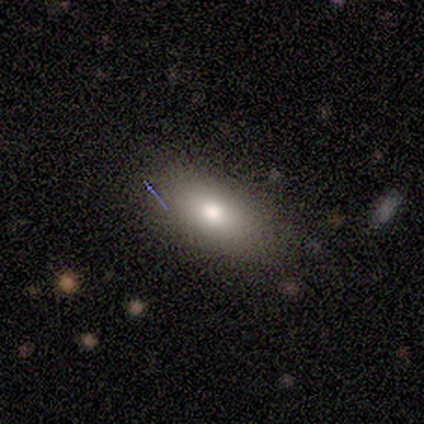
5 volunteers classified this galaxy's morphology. smooth 40% (tied), featured or disk 40% (tied), star or artifact 20%. Down the decision tree: how rounded — in between (50%, tied with cigar-shaped); merging — none (100%).